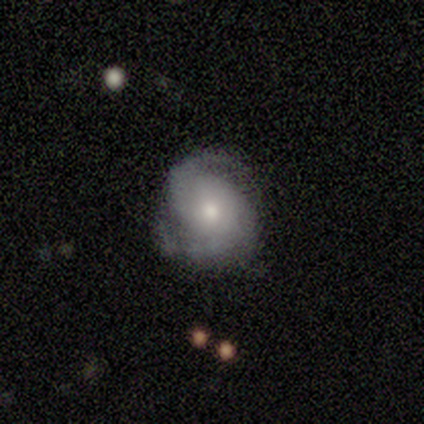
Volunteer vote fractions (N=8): Q: Smooth or featured?
A: featured or disk (88%); runner-up: smooth (12%)
Q: Edge-on disk?
A: no (100%)
Q: Bar?
A: no (100%)
Q: Spiral arms?
A: yes (100%)
Q: Spiral winding?
A: medium (57%); runner-up: tight (29%)
Q: Spiral arm count?
A: 2 (100%)
Q: Bulge size?
A: moderate (57%); runner-up: small (29%)
Q: Merging?
A: none (88%); runner-up: minor disturbance (12%)